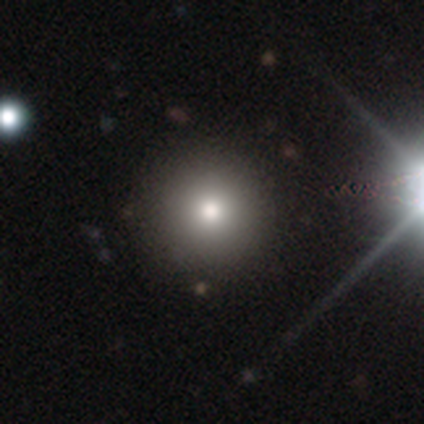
Smooth or featured? 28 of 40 (70%) said smooth. How rounded? 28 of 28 (100%) said round. Merging? 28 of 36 (78%) said none.